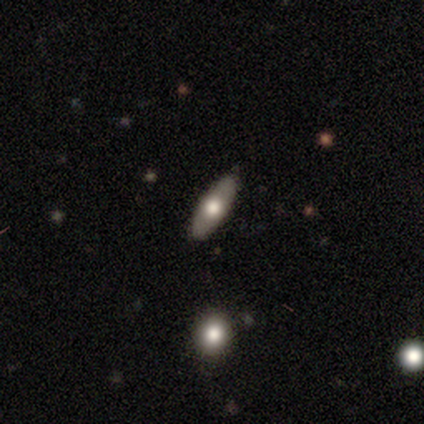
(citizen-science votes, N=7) A featured or disk galaxy (57%) viewed edge-on (75%) with a rounded central bulge (100%).

Vote fractions:
- Smooth or featured? featured or disk: 57% / smooth: 43% / star or artifact: 0%
- Edge-on disk? yes: 75% / no: 25%
- Edge-on bulge? rounded: 100% / boxy: 0% / none: 0%
- Merging? none: 100% / minor disturbance: 0% / major disturbance: 0% / merger: 0%